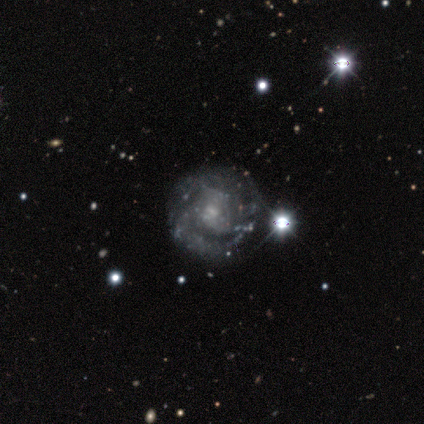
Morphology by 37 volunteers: Smooth or featured? featured or disk (81%)
Edge-on disk? no (93%)
Bar? no (68%)
Spiral arms? yes (79%)
Spiral winding? tight (50%)
Spiral arm count? can't tell (41%)
Bulge size? small (46%)
Merging? none (71%)